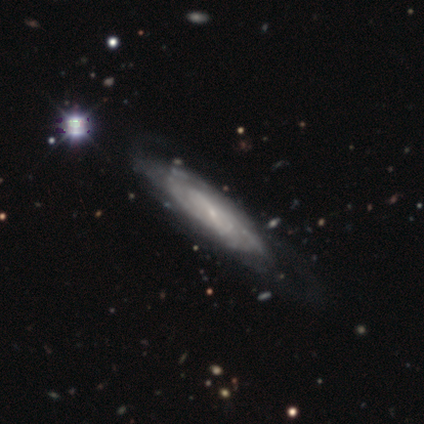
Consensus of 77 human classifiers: Smooth or featured? 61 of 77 (79%) said featured or disk. Edge-on disk? 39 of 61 (64%) said no. Bar? 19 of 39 (49%) said no. Spiral arms? 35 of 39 (90%) said yes. Spiral winding? 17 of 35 (49%) said medium. Spiral arm count? 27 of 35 (77%) said can't tell. Bulge size? 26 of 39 (67%) said small. Merging? 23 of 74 (31%) said none.